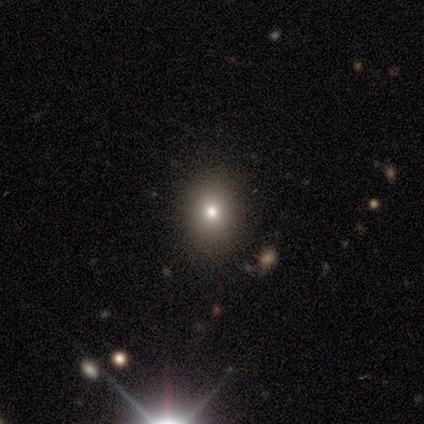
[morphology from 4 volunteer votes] Smooth or featured?
  - star or artifact: 75% *
  - smooth: 25%
  - featured or disk: 0%